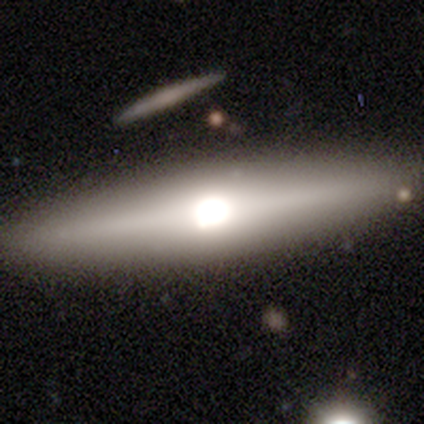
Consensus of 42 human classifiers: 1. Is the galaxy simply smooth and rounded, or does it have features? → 62% featured or disk, 29% smooth, 10% star or artifact.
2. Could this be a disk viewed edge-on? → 100% yes, 0% no.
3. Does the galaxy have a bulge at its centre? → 96% rounded, 4% boxy, 0% none.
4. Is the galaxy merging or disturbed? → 89% none, 5% minor disturbance, 3% major disturbance, 3% merger.